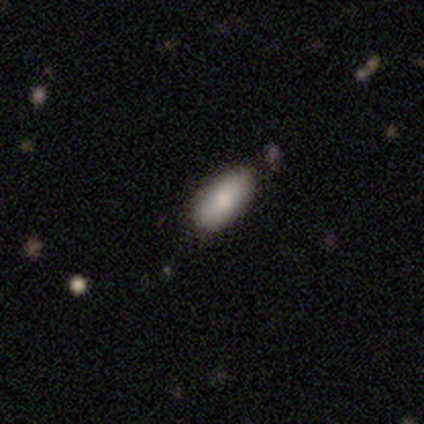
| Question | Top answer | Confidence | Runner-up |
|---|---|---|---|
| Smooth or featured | smooth | 100% | — |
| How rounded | in between | 100% | — |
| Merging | none | 100% | — |